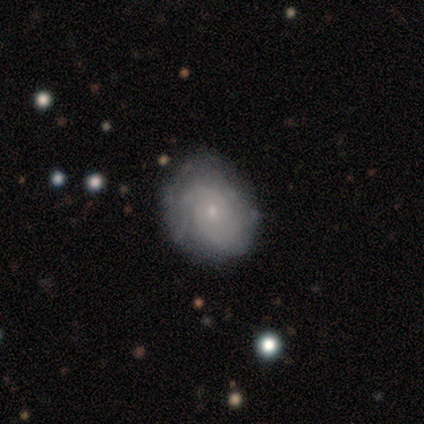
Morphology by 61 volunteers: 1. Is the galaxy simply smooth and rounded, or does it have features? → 87% featured or disk, 11% smooth, 2% star or artifact.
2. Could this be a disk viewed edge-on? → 100% no, 0% yes.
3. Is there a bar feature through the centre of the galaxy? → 83% no, 13% weak, 4% strong.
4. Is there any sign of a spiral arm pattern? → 91% yes, 9% no.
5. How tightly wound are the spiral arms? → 79% tight, 15% medium, 6% loose.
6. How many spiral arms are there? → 52% can't tell, 29% 2, 10% 3, 4% 4, 2% 1, 2% more than 4.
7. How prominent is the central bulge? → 89% small, 11% moderate, 0% dominant, 0% large, 0% none.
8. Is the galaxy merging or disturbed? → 75% none, 25% minor disturbance, 0% major disturbance, 0% merger.